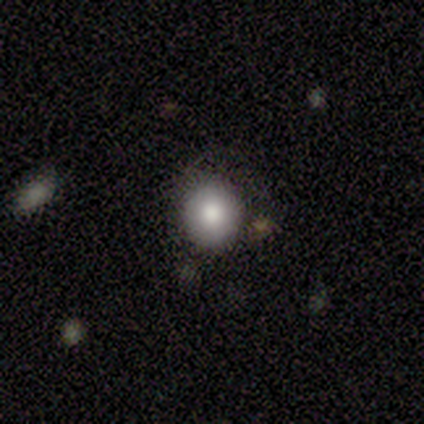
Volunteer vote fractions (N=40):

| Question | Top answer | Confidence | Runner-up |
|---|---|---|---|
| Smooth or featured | smooth | 78% | star or artifact (15%) |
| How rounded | round | 84% | in between (16%) |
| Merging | none | 79% | minor disturbance (18%) |